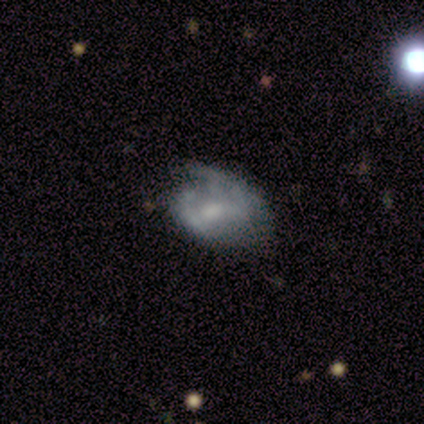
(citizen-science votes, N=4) smooth_or_featured: smooth (p=0.50) [tied with: featured or disk p=0.50]
how_rounded: in between (p=1.00)
merging: minor disturbance (p=0.50) [alt: none p=0.25]